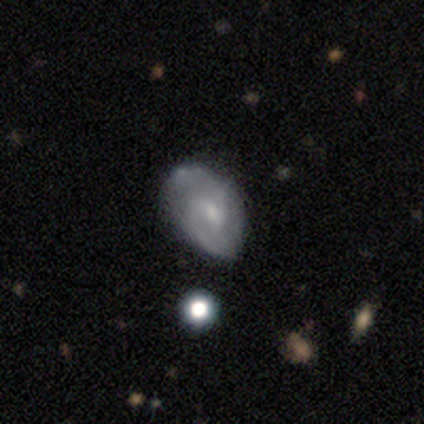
Smooth or featured?
  - featured or disk: 67% *
  - smooth: 33%
  - star or artifact: 0%
Edge-on disk?
  - no: 75% *
  - yes: 25%
Bar?
  - no: 67% *
  - weak: 33%
  - strong: 0%
Spiral arms?
  - yes: 100% *
  - no: 0%
Spiral winding?
  - medium: 67% *
  - tight: 33%
  - loose: 0%
Spiral arm count?
  - 2: 100% *
  - 1: 0%
  - 3: 0%
  - 4: 0%
  - more than 4: 0%
  - can't tell: 0%
Bulge size?
  - small: 67% *
  - none: 33%
  - dominant: 0%
  - large: 0%
  - moderate: 0%
Merging?
  - none: 50% *
  - minor disturbance: 33%
  - merger: 17%
  - major disturbance: 0%